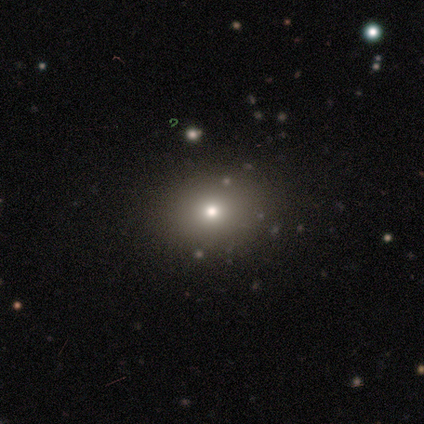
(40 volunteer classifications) This is likely a smooth galaxy (62%). How rounded: likely round (64%). Merging: clearly none (90%).